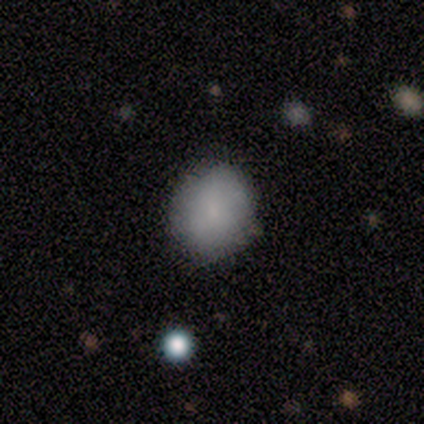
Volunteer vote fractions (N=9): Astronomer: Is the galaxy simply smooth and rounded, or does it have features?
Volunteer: smooth — 100%.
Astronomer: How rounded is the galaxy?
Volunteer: round — 78%.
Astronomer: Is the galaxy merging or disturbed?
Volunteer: none — 89%.